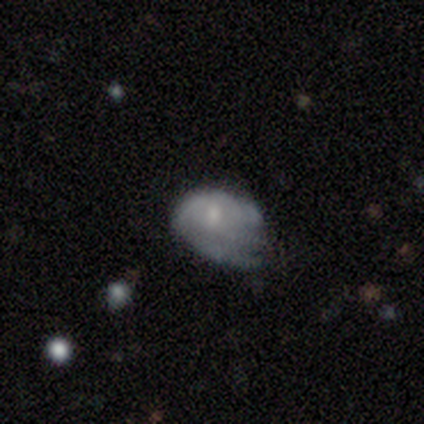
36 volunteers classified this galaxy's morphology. A featured or disk galaxy (58%) with no bar (86%), medium (38%) spiral arms (62%) and a small central bulge (57%). Merging: major disturbance (43%).